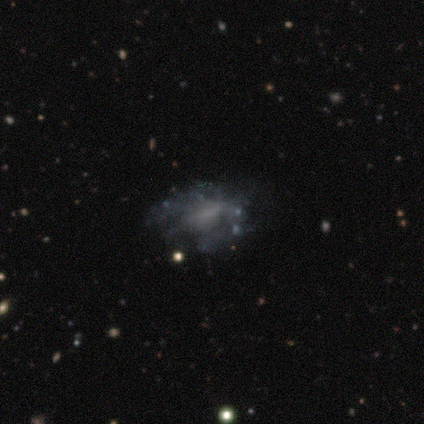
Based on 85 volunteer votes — Smooth or featured?
  - featured or disk: 61% *
  - smooth: 26%
  - star or artifact: 13%
Edge-on disk?
  - no: 100% *
  - yes: 0%
Bar?
  - no: 81% *
  - weak: 15%
  - strong: 4%
Spiral arms?
  - no: 79% *
  - yes: 21%
Bulge size?
  - none: 75% *
  - small: 12%
  - moderate: 8%
  - large: 6%
  - dominant: 0%
Merging?
  - none: 58% *
  - major disturbance: 23%
  - minor disturbance: 16%
  - merger: 3%